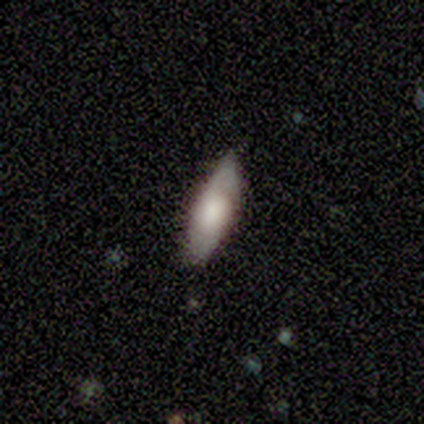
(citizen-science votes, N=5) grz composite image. It shows a smooth galaxy with no disk features (80%) that is in between round and cigar-shaped (75%). Merging: none (80%).